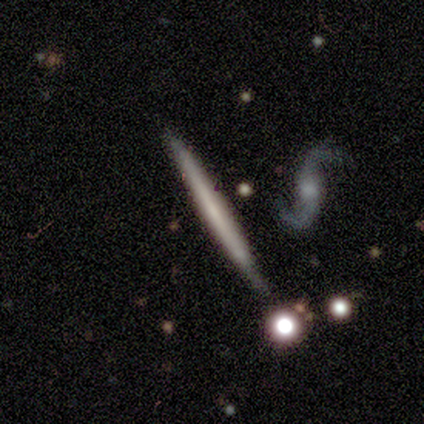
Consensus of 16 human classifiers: Smooth or featured?
  - featured or disk: 56% *
  - smooth: 38%
  - star or artifact: 6%
Edge-on disk?
  - yes: 100% *
  - no: 0%
Edge-on bulge?
  - none: 100% *
  - boxy: 0%
  - rounded: 0%
Merging?
  - none: 73% *
  - minor disturbance: 20%
  - major disturbance: 7%
  - merger: 0%